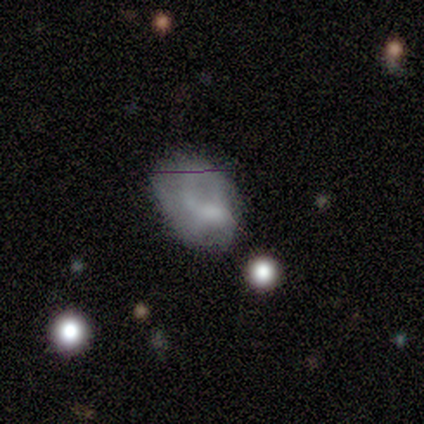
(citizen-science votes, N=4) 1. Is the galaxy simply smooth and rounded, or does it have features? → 75% smooth, 25% star or artifact, 0% featured or disk.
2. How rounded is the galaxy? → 67% in between, 33% round, 0% cigar-shaped.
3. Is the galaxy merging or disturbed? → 67% none, 33% minor disturbance, 0% major disturbance, 0% merger.